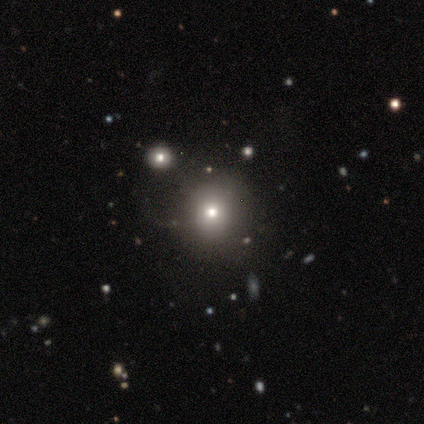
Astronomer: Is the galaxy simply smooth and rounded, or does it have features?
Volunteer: smooth — 60% (runner-up: star or artifact, 40%).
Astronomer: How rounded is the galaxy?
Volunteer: round — 67%.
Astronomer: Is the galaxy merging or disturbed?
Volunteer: none — 100%.